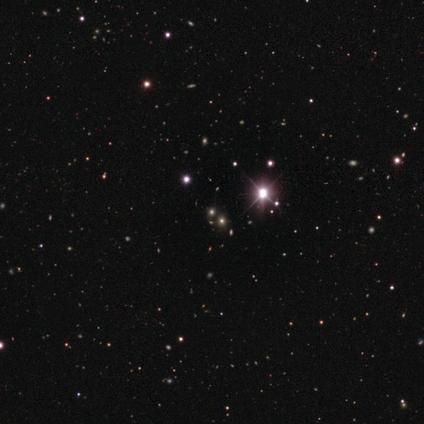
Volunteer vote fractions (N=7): Volunteers were most divided on "smooth or featured": star or artifact: 86%, smooth: 14%, featured or disk: 0%.